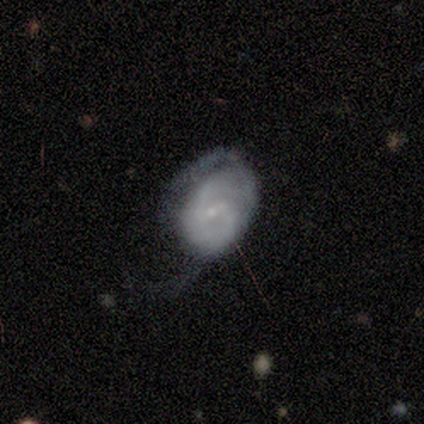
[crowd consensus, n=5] smooth 60%, featured or disk 40%, star or artifact 0%. Down the decision tree: how rounded — in between (100%); merging — major disturbance (60%).